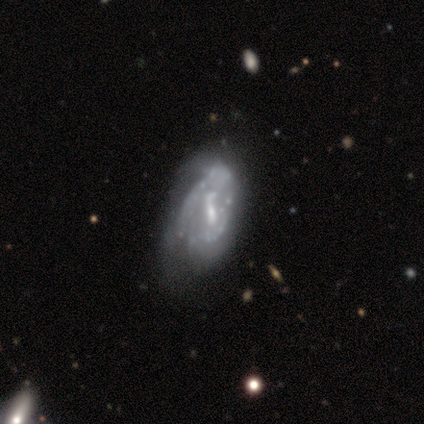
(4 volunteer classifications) A featured or disk galaxy (75%) with no bar (100%), tight (50%, tied with loose) spiral arms (67%) and a small central bulge (67%).

Vote fractions:
- Smooth or featured? featured or disk: 75% / star or artifact: 25% / smooth: 0%
- Edge-on disk? no: 100% / yes: 0%
- Bar? no: 100% / strong: 0% / weak: 0%
- Spiral arms? yes: 67% / no: 33%
- Spiral winding? tight: 50% (tied) / loose: 50% (tied) / medium: 0%
- Spiral arm count? can't tell: 100% / 1: 0% / 2: 0% / 3: 0% / 4: 0% / more than 4: 0%
- Bulge size? small: 67% / moderate: 33% / dominant: 0% / large: 0% / none: 0%
- Merging? none: 67% / minor disturbance: 33% / major disturbance: 0% / merger: 0%